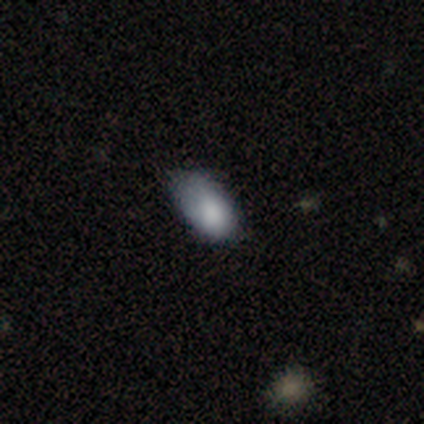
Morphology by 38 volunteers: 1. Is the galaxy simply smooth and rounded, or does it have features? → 79% smooth, 13% star or artifact, 8% featured or disk.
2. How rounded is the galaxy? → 93% in between, 7% round, 0% cigar-shaped.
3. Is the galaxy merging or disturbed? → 45% minor disturbance, 39% none, 15% major disturbance, 0% merger.